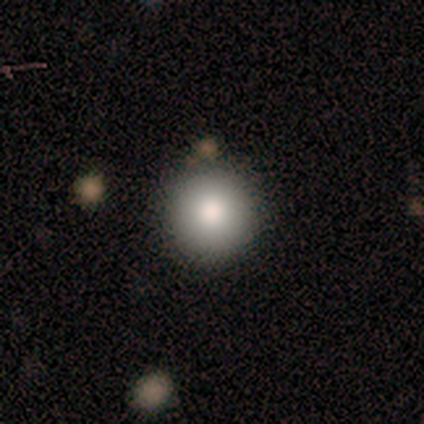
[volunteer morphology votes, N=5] Smooth or featured: smooth — 80% (featured or disk — 20%)
How rounded: round — 100%
Merging: none — 100%